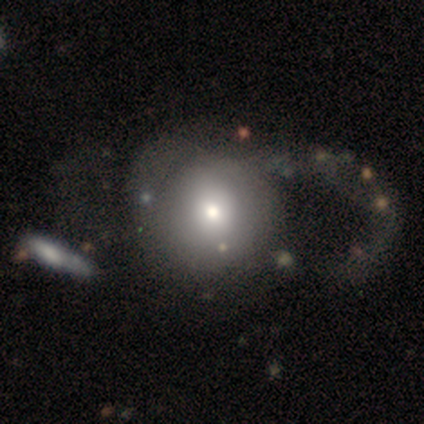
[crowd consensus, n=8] Volunteers were most divided on "smooth or featured": smooth: 75%, featured or disk: 12%, star or artifact: 12%. More confident: merging — major disturbance (86%); how rounded — round (83%).